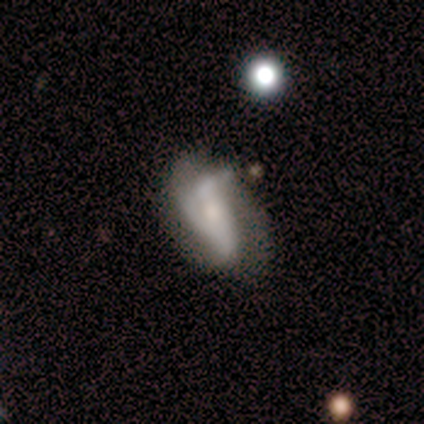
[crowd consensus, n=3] smooth_or_featured: featured or disk (p=1.00)
disk_edge_on: no (p=1.00)
bar: no (p=0.67) [alt: weak p=0.33]
has_spiral_arms: yes (p=0.67) [alt: no p=0.33]
spiral_winding: loose (p=1.00)
spiral_arm_count: 1 (p=0.50) [tied with: 2 p=0.50]
bulge_size: small (p=0.67) [alt: moderate p=0.33]
merging: none (p=0.33) [tied with: minor disturbance p=0.33, merger p=0.33]